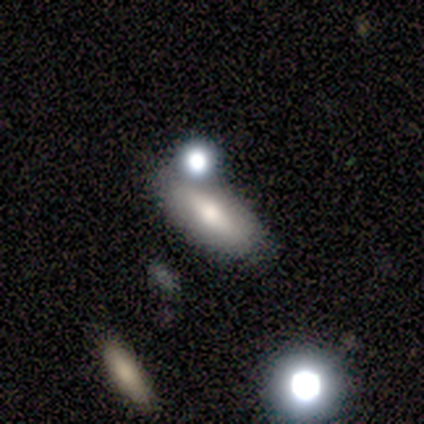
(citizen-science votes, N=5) smooth-or-featured: smooth: 80% | featured or disk: 20% | star or artifact: 0%
  how-rounded: in between: 75% | cigar-shaped: 25% | round: 0%
  merging: none: 80% | minor disturbance: 20% | major disturbance: 0% | merger: 0%